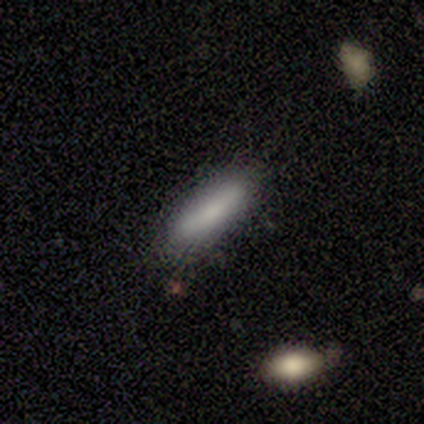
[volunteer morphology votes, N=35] This appears to be a smooth galaxy with no disk features (86%) that is in between round and cigar-shaped (50%, tied with cigar-shaped). Merging: none (84%).